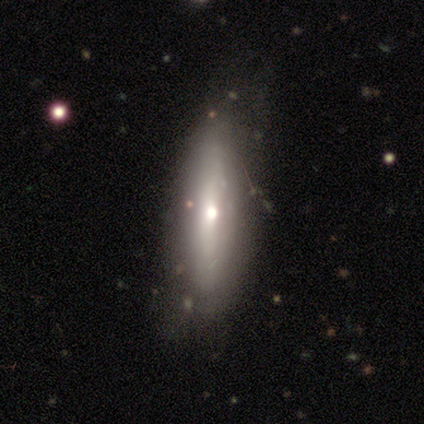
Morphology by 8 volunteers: This appears to be a smooth galaxy with no disk features (62%) that is cigar-shaped (100%). Merging: none (75%).